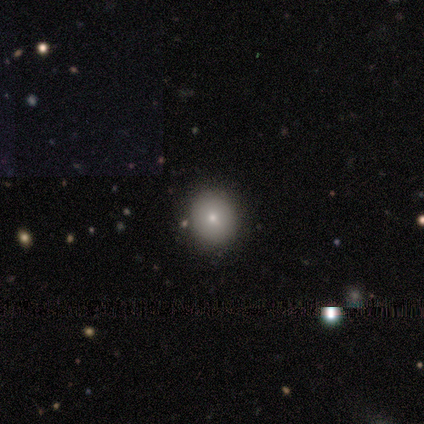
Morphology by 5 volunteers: smooth-or-featured: smooth: 80% | star or artifact: 20% | featured or disk: 0%
  how-rounded: round: 75% | in between: 25% | cigar-shaped: 0%
  merging: none: 100% | minor disturbance: 0% | major disturbance: 0% | merger: 0%